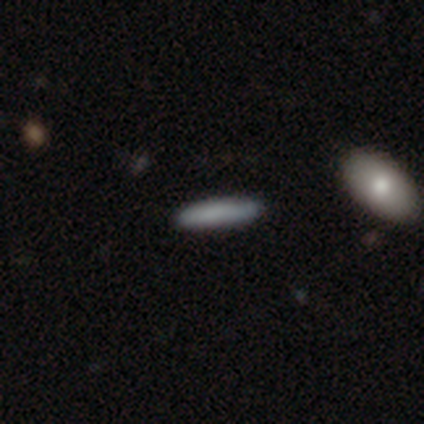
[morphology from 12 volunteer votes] A smooth galaxy with no disk features (92%) that is cigar-shaped (100%).

Vote fractions:
- Smooth or featured? smooth: 92% / featured or disk: 8% / star or artifact: 0%
- How rounded? cigar-shaped: 100% / round: 0% / in between: 0%
- Merging? none: 83% / minor disturbance: 17% / major disturbance: 0% / merger: 0%